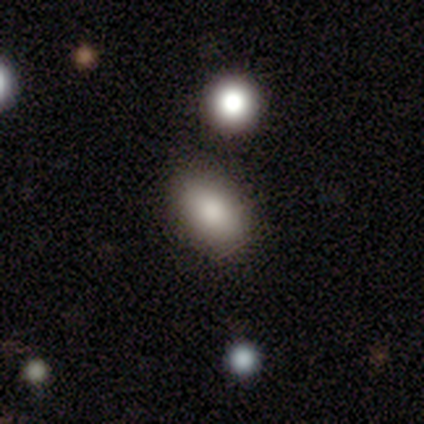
Smooth or featured?
  - smooth: 40% * (tied)
  - featured or disk: 40% * (tied)
  - star or artifact: 20%
How rounded?
  - in between: 100% *
  - round: 0%
  - cigar-shaped: 0%
Merging?
  - none: 100% *
  - minor disturbance: 0%
  - major disturbance: 0%
  - merger: 0%